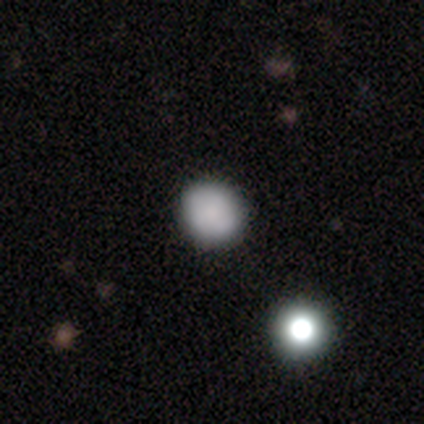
Q: Smooth or featured?
A: smooth (90%); runner-up: featured or disk (5%)
Q: How rounded?
A: round (83%); runner-up: in between (17%)
Q: Merging?
A: none (86%); runner-up: minor disturbance (14%)